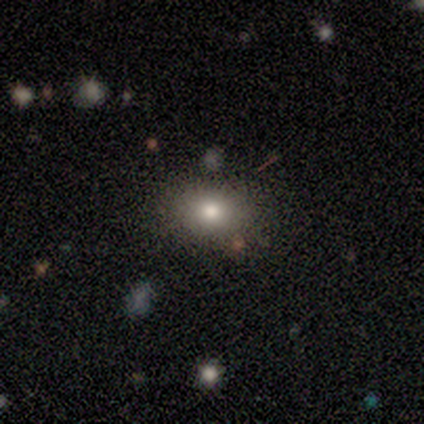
Volunteers were most divided on "smooth or featured": smooth: 60%, star or artifact: 40%, featured or disk: 0%. More confident: merging — none (100%); how rounded — round (67%).